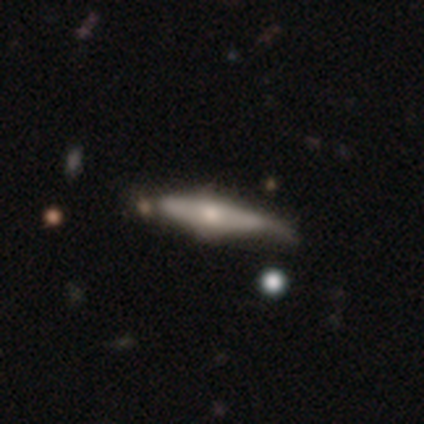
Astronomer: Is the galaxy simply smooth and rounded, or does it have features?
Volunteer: smooth — 80%.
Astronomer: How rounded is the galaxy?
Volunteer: cigar-shaped — 75%.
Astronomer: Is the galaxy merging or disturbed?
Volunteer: none — 60%.